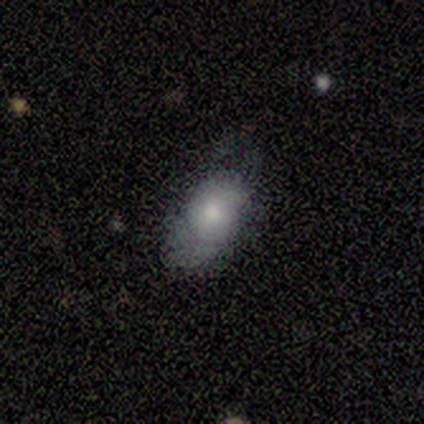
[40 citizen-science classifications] A smooth galaxy with no disk features (75%) that is in between round and cigar-shaped (90%).

Vote fractions:
- Smooth or featured? smooth: 75% / featured or disk: 20% / star or artifact: 5%
- How rounded? in between: 90% / round: 7% / cigar-shaped: 3%
- Merging? none: 55% / minor disturbance: 26% / major disturbance: 18% / merger: 0%